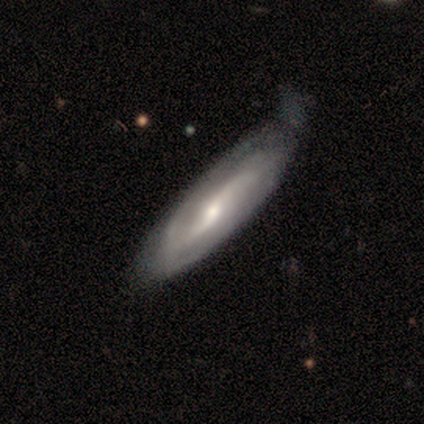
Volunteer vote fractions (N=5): Overall: featured or disk (60%; smooth 20%). Edge-on disk: no (100%). Bar: weak (100%). Spiral arms: yes (67%; no 33%). Spiral arm count: 2 (100%). Spiral winding: tight (50%, tied with medium). Bulge size: moderate (67%; none 33%). Merging: minor disturbance (50%; none 25%).